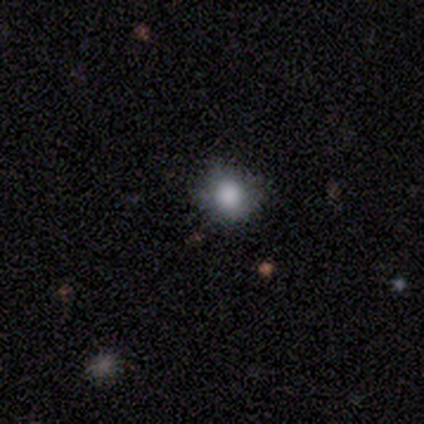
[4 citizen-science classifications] This appears to be a smooth galaxy with no disk features (100%) that is round (50%, tied with in between). Merging: none (50%, tied with minor disturbance).